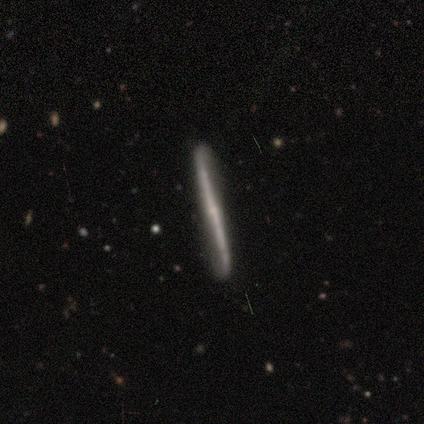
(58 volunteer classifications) Overall: featured or disk (78%). Edge-on disk: yes (93%). Edge-on bulge: none (57%; rounded 43%). Merging: none (83%).